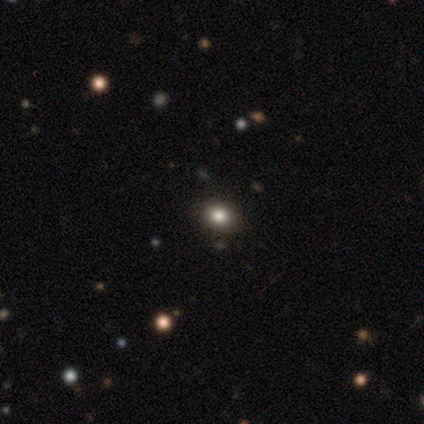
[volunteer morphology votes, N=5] A smooth galaxy with no disk features (40%, tied with star or artifact) that is round (100%). Merging: none (100%).